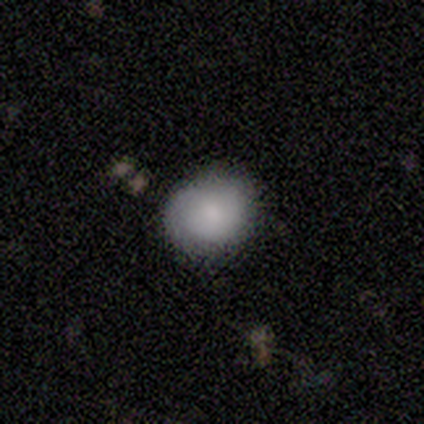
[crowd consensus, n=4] Smooth or featured?
  - smooth: 100% *
  - featured or disk: 0%
  - star or artifact: 0%
How rounded?
  - round: 100% *
  - in between: 0%
  - cigar-shaped: 0%
Merging?
  - none: 100% *
  - minor disturbance: 0%
  - major disturbance: 0%
  - merger: 0%